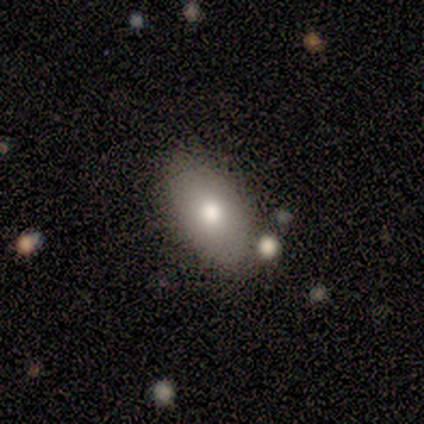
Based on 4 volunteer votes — Overall: smooth (50%, tied with featured or disk). How rounded: in between (50%, tied with cigar-shaped). Merging: none (100%).